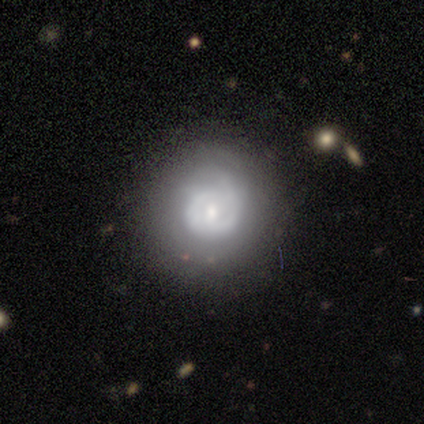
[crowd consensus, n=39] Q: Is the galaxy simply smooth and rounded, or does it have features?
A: featured or disk — 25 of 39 (64%).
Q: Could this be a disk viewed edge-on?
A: no — 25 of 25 (100%).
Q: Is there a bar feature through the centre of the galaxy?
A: no — 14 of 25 (56%).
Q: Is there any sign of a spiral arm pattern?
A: yes — 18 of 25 (72%).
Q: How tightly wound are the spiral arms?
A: tight — 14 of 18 (78%).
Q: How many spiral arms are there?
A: can't tell — 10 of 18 (56%).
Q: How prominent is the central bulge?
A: moderate — 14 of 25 (56%).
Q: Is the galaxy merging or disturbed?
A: none — 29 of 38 (76%).